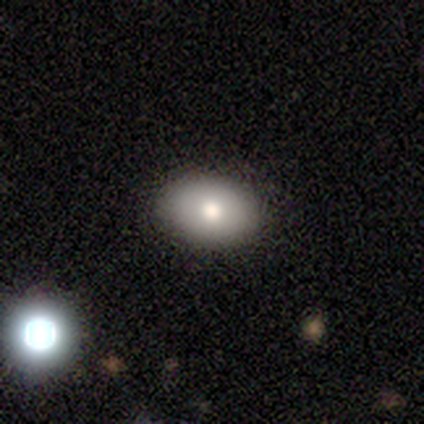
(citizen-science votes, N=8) smooth_or_featured: smooth (p=0.88) [alt: featured or disk p=0.12]
how_rounded: in between (p=0.86) [alt: round p=0.14]
merging: none (p=1.00)